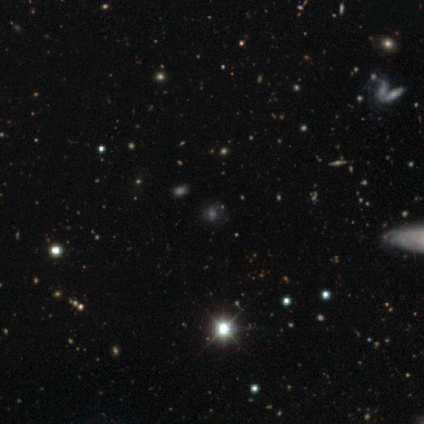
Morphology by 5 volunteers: Smooth or featured?
  - smooth: 40% * (tied)
  - star or artifact: 40% * (tied)
  - featured or disk: 20%
How rounded?
  - round: 100% *
  - in between: 0%
  - cigar-shaped: 0%
Merging?
  - none: 67% *
  - major disturbance: 33%
  - minor disturbance: 0%
  - merger: 0%